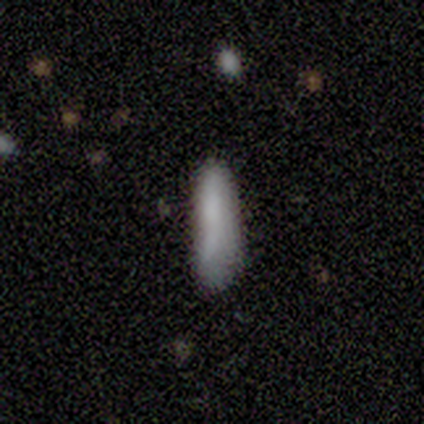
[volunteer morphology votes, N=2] smooth_or_featured: smooth (p=0.50) [tied with: featured or disk p=0.50]
how_rounded: cigar-shaped (p=1.00)
merging: none (p=0.50) [tied with: minor disturbance p=0.50]